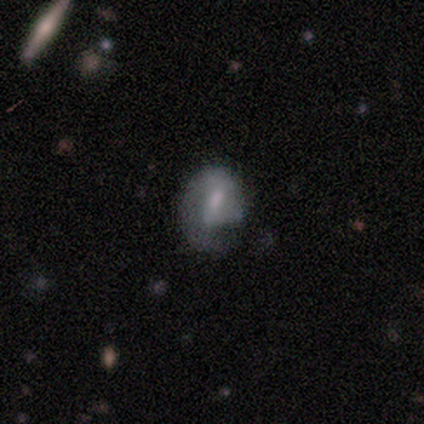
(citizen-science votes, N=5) featured or disk 100%, smooth 0%, star or artifact 0%. Down the decision tree: edge-on disk — no (100%); bar — weak (60%); spiral arms — yes (60%); spiral arm count — 1 (100%); spiral winding — tight (100%); bulge size — none (60%); merging — none (40%, tied with major disturbance).